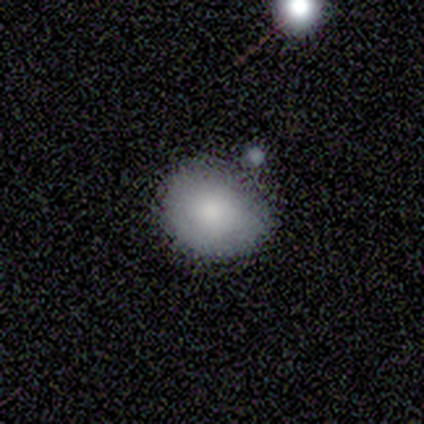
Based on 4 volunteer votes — smooth 100%, featured or disk 0%, star or artifact 0%. Down the decision tree: how rounded — round (50%, tied with in between); merging — none (75%).